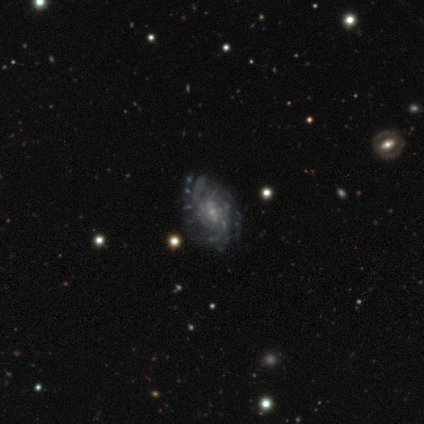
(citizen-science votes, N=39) A featured or disk galaxy (87%) with no bar (56%), more than 4 (39%) tight (48%) spiral arms (91%) and a small central bulge (79%).

Vote fractions:
- Smooth or featured? featured or disk: 87% / star or artifact: 10% / smooth: 3%
- Edge-on disk? no: 100% / yes: 0%
- Bar? no: 56% / weak: 32% / strong: 12%
- Spiral arms? yes: 91% / no: 9%
- Spiral winding? tight: 48% / medium: 35% / loose: 16%
- Spiral arm count? more than 4: 39% / can't tell: 29% / 2: 13% / 3: 10% / 4: 10% / 1: 0%
- Bulge size? small: 79% / moderate: 12% / none: 6% / dominant: 3% / large: 0%
- Merging? none: 46% / minor disturbance: 11% / major disturbance: 11% / merger: 0%